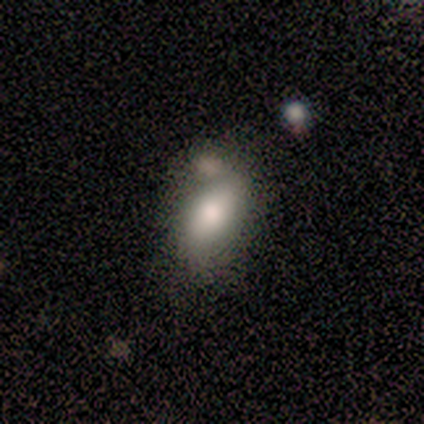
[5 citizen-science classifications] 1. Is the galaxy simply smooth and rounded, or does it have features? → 80% smooth, 20% star or artifact, 0% featured or disk.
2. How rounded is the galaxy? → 100% in between, 0% round, 0% cigar-shaped.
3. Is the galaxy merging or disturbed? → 75% none, 25% merger, 0% minor disturbance, 0% major disturbance.